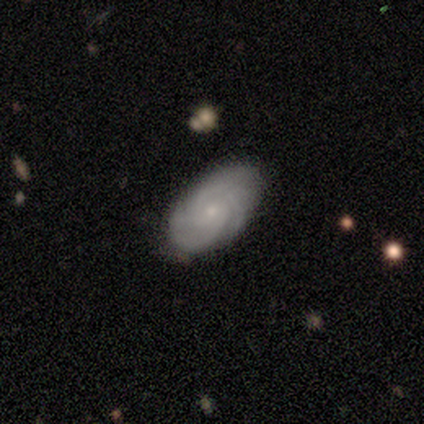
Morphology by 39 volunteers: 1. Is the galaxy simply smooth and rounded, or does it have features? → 74% featured or disk, 26% smooth, 0% star or artifact.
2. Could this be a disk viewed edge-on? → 97% no, 3% yes.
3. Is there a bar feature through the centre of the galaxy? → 71% no, 21% weak, 7% strong.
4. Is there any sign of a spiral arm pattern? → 86% yes, 14% no.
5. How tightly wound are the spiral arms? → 67% tight, 29% medium, 4% loose.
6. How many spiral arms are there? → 46% 2, 25% 3, 21% can't tell, 4% 4, 4% more than 4, 0% 1.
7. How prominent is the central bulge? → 75% small, 21% moderate, 4% none, 0% dominant, 0% large.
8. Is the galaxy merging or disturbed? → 74% none, 21% minor disturbance, 5% major disturbance, 0% merger.